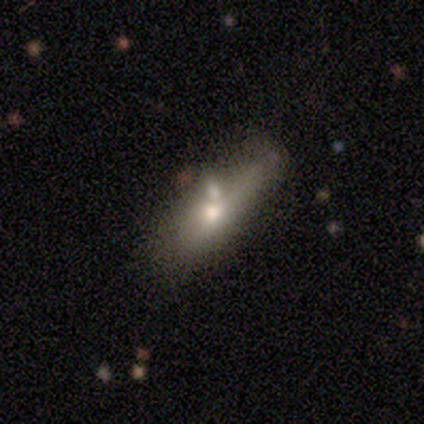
A smooth galaxy with no disk features (68%) that is in between round and cigar-shaped (62%).

Vote fractions:
- Smooth or featured? smooth: 68% / featured or disk: 26% / star or artifact: 5%
- How rounded? in between: 62% / cigar-shaped: 38% / round: 0%
- Merging? none: 36% / merger: 31% / minor disturbance: 28% / major disturbance: 6%